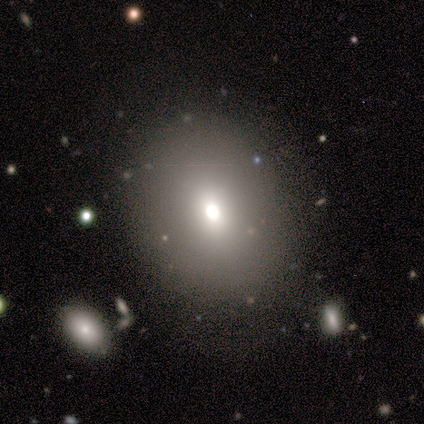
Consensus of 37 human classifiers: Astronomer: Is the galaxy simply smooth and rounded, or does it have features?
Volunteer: smooth — 81%.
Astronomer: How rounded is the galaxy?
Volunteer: round — 50%, tied with in between at 50%.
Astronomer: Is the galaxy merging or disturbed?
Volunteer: none — 85%.